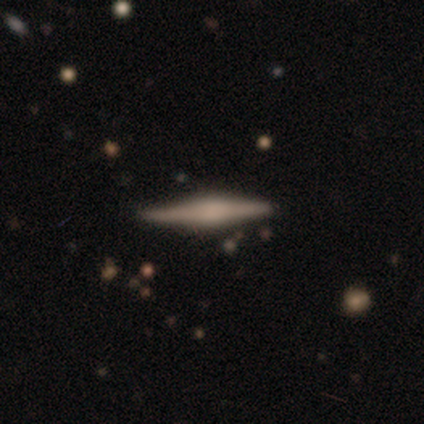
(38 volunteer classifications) Morphology: type=featured or disk (79%); edge-on=yes (97%); edge-on bulge=rounded (76%); merging=none (92%).